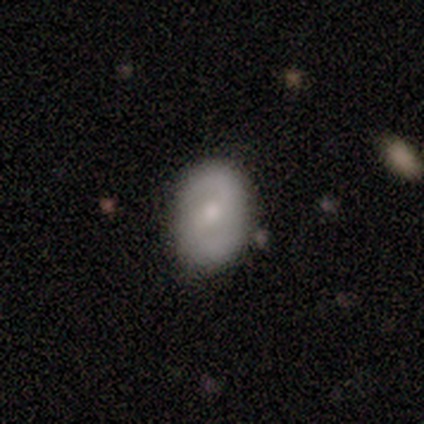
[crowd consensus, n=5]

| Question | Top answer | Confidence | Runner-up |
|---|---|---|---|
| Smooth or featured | featured or disk | 60% | smooth (40%) |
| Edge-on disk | no | 100% | — |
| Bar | weak | 67% | no (33%) |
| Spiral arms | yes | 100% | — |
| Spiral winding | medium | 67% | loose (33%) |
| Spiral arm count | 2 | 100% | — |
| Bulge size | moderate | 33% | tied: small (33%), none (33%) |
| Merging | none | 80% | minor disturbance (20%) |